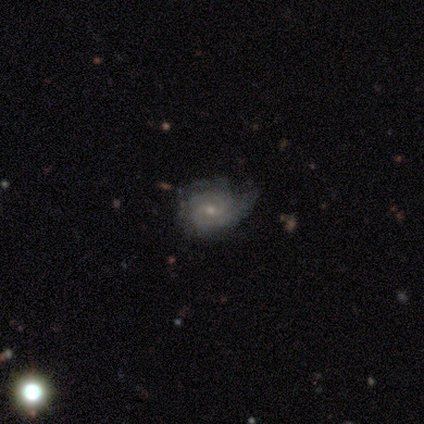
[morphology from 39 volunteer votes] smooth_or_featured: featured or disk (p=0.79) [alt: smooth p=0.15]
disk_edge_on: no (p=0.97) [alt: yes p=0.03]
bar: weak (p=0.53) [alt: no p=0.40]
has_spiral_arms: yes (p=0.93) [alt: no p=0.07]
spiral_winding: tight (p=0.61) [alt: medium p=0.29]
spiral_arm_count: 2 (p=0.61) [alt: can't tell p=0.29]
bulge_size: small (p=0.70) [alt: moderate p=0.20]
merging: none (p=0.54) [alt: minor disturbance p=0.41]